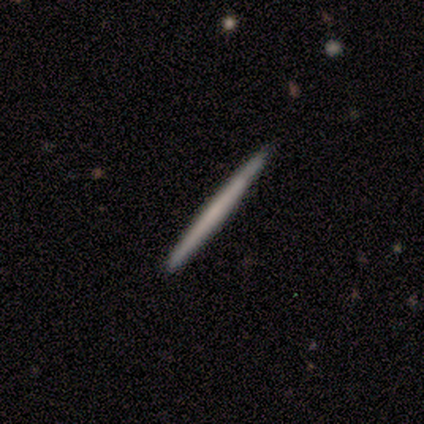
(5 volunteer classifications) Smooth or featured?
  - smooth: 60% *
  - featured or disk: 40%
  - star or artifact: 0%
How rounded?
  - cigar-shaped: 67% *
  - round: 33%
  - in between: 0%
Merging?
  - none: 100% *
  - minor disturbance: 0%
  - major disturbance: 0%
  - merger: 0%